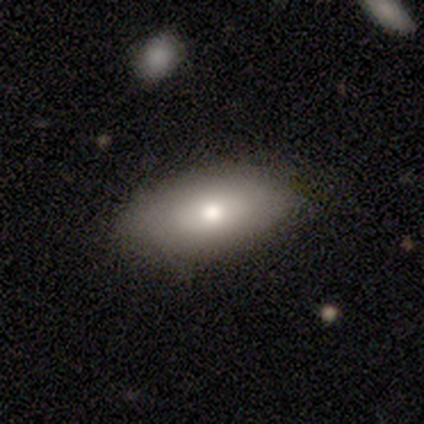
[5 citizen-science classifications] smooth 60%, featured or disk 40%, star or artifact 0%. Down the decision tree: how rounded — in between (100%); merging — none (100%).